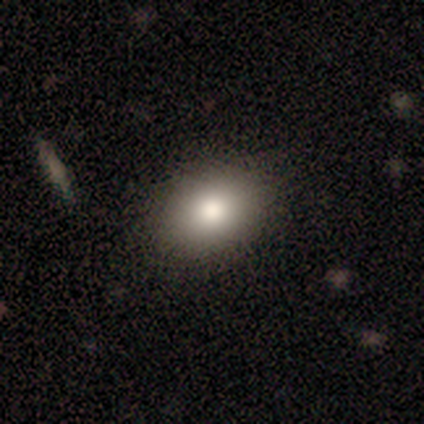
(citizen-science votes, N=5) Morphology: type=smooth (100%); roundness=in between (80%); merging=none (100%).